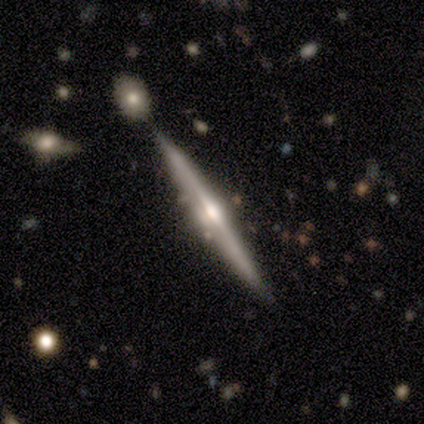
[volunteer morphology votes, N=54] featured or disk 81%, smooth 13%, star or artifact 6%. Down the decision tree: edge-on disk — yes (100%); edge-on bulge — rounded (80%); merging — none (84%).